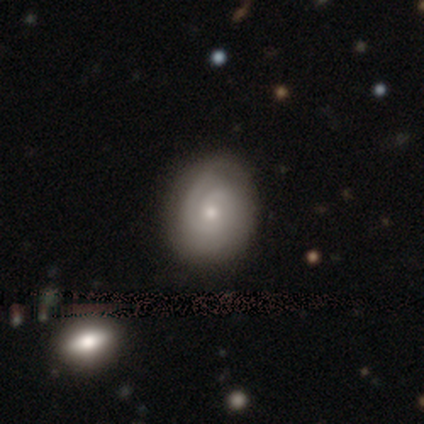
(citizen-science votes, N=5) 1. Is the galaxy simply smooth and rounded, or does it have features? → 80% featured or disk, 20% smooth, 0% star or artifact.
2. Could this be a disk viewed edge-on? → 100% no, 0% yes.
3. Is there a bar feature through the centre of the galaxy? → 75% no, 25% weak, 0% strong.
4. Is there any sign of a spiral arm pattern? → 100% yes, 0% no.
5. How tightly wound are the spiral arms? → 50% tight (tied), 50% medium (tied), 0% loose.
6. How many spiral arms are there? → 75% 2, 25% can't tell, 0% 1, 0% 3, 0% 4, 0% more than 4.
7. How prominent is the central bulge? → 75% small, 25% moderate, 0% dominant, 0% large, 0% none.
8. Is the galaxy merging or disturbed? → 100% none, 0% minor disturbance, 0% major disturbance, 0% merger.